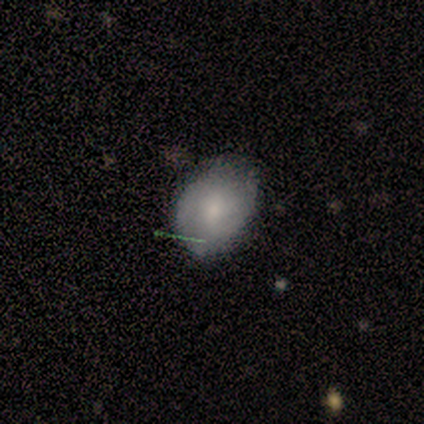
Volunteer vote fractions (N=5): Smooth or featured? featured or disk (60%)
Edge-on disk? no (100%)
Bar? no (67%)
Spiral arms? no (67%)
Bulge size? moderate (100%)
Merging? none (60%)